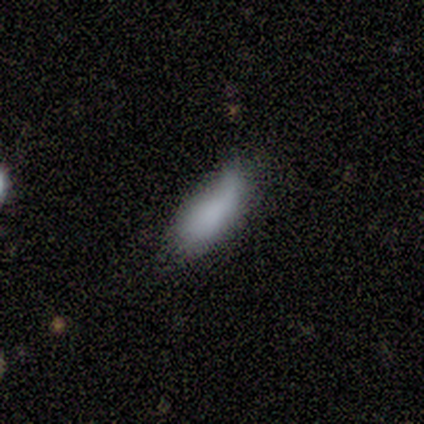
This is clearly a smooth galaxy (100%). How rounded: clearly in between (100%). Merging: likely none (60%).